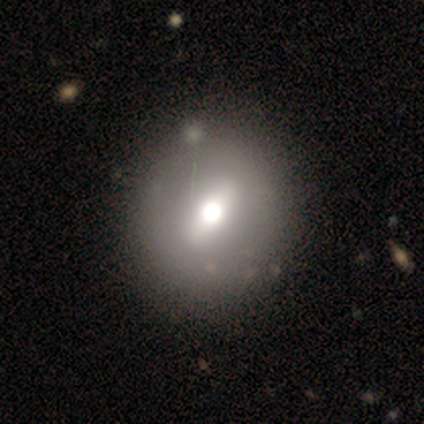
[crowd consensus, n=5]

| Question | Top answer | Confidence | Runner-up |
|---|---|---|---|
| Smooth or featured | smooth | 80% | featured or disk (20%) |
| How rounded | round | 75% | in between (25%) |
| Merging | none | 60% | minor disturbance (20%) |